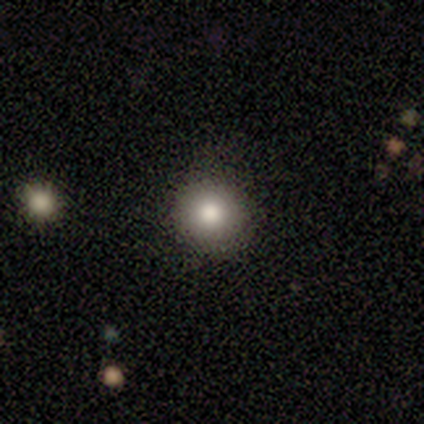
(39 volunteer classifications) Smooth or featured: smooth — 74% (star or artifact — 18%)
How rounded: round — 93% (in between — 7%)
Merging: none — 81% (minor disturbance — 19%)